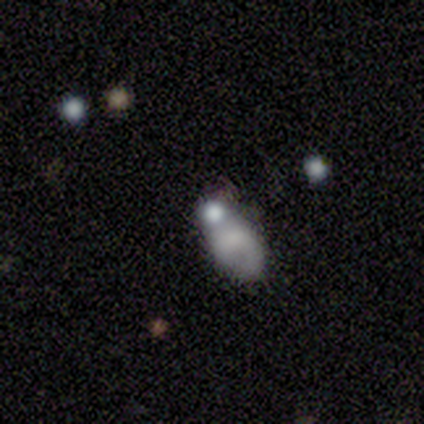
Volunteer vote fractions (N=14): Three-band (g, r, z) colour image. It shows a smooth galaxy with no disk features (79%) that is in between round and cigar-shaped (82%). Merging: merger (42%).